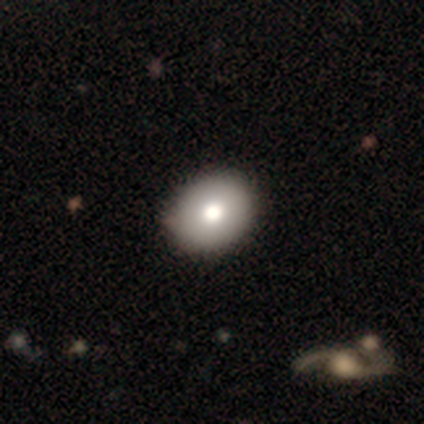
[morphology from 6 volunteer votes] smooth-or-featured: smooth: 83% | featured or disk: 17% | star or artifact: 0%
  how-rounded: in between: 80% | round: 20% | cigar-shaped: 0%
  merging: none: 83% | minor disturbance: 17% | major disturbance: 0% | merger: 0%